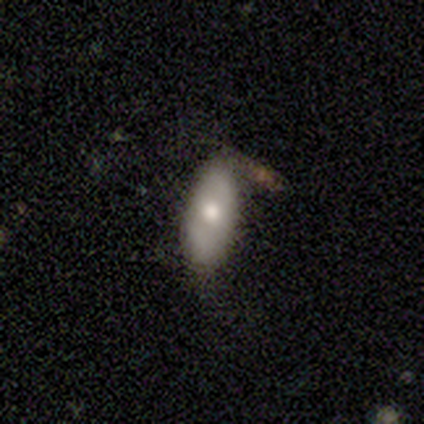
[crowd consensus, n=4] Smooth or featured? smooth (75%)
How rounded? in between (67%)
Merging? none (75%)